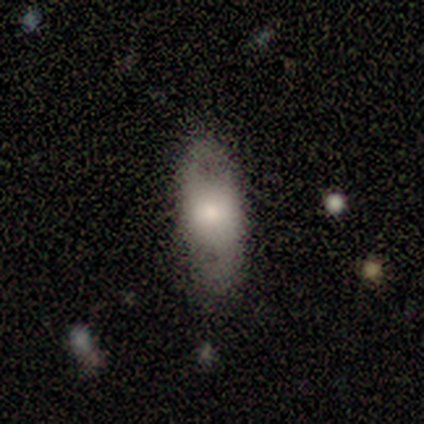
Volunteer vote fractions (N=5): A featured or disk galaxy (60%) with no bar (100%), no spiral arms (67%) and a moderate central bulge (67%). Merging: none (80%).